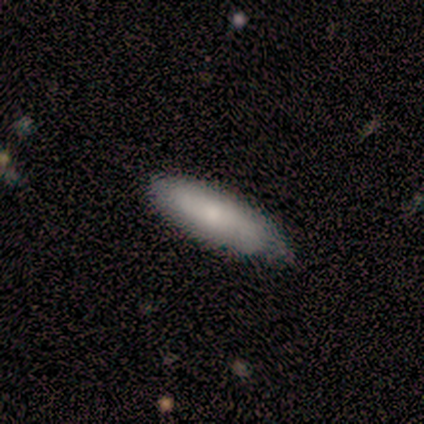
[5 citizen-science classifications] This appears to be a smooth galaxy with no disk features (80%) that is cigar-shaped (75%). Merging: minor disturbance (80%).